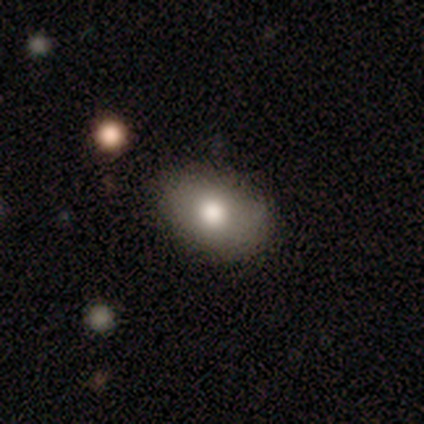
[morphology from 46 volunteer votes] Smooth or featured?
  - smooth: 74% *
  - star or artifact: 15%
  - featured or disk: 11%
How rounded?
  - in between: 76% *
  - round: 21%
  - cigar-shaped: 3%
Merging?
  - none: 87% *
  - minor disturbance: 10%
  - merger: 3%
  - major disturbance: 0%